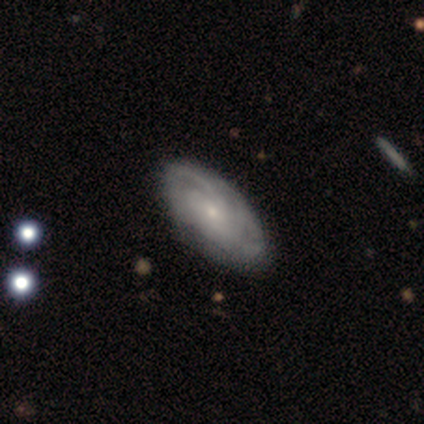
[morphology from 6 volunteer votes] Volunteers were most divided on "spiral arm count": can't tell: 60%, 3: 20%, more than 4: 20%, 1: 0%, 2: 0%, 4: 0%. More confident: edge-on disk — no (100%); spiral arms — yes (100%); bulge size — small (100%); merging — none (100%); smooth or featured — featured or disk (83%); bar — no (80%); spiral winding — tight (80%).